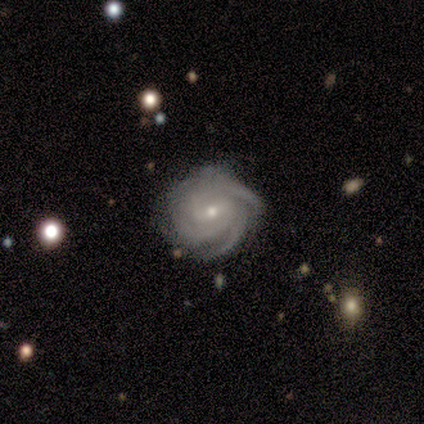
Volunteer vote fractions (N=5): Smooth or featured? featured or disk (100%)
Edge-on disk? no (100%)
Bar? weak (80%)
Spiral arms? yes (100%)
Spiral winding? tight (100%)
Spiral arm count? 3 (60%)
Bulge size? small (60%)
Merging? none (80%)